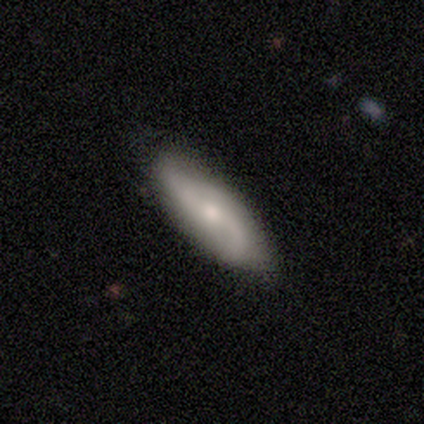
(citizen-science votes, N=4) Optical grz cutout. It shows a featured or disk galaxy (75%) with no bar (100%), 2 (67%) loose (100%) spiral arms (100%) and a small central bulge (67%). Merging: none (100%).